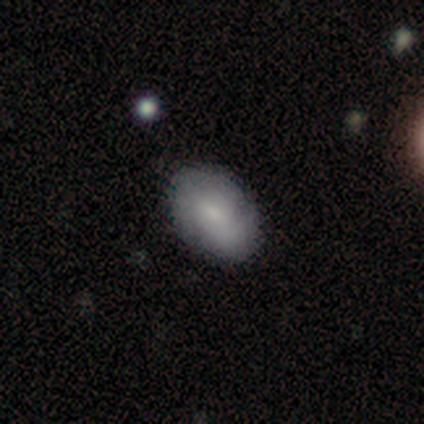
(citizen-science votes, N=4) A smooth galaxy with no disk features (75%) that is in between round and cigar-shaped (100%). Merging: none (75%).